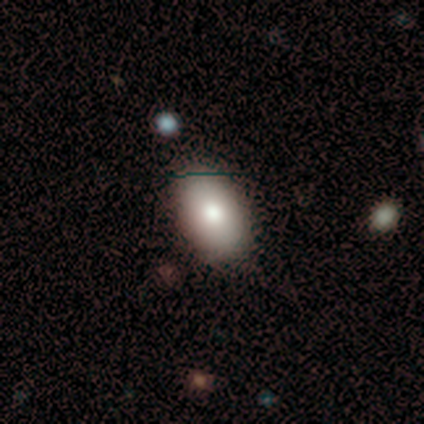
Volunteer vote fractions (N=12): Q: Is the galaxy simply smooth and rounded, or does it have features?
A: smooth — 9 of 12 (75%).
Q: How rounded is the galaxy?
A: in between — 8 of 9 (89%).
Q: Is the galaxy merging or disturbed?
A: none — 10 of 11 (91%).